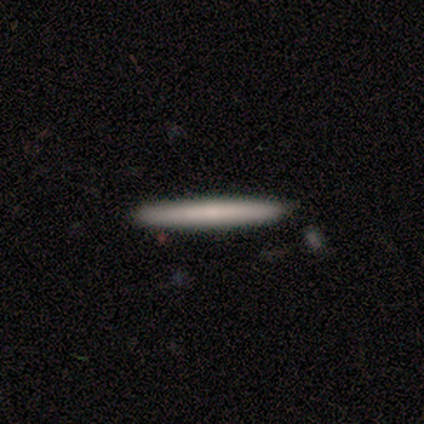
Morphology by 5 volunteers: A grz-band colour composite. It shows a smooth galaxy with no disk features (60%) that is cigar-shaped (100%). Merging: none (100%).